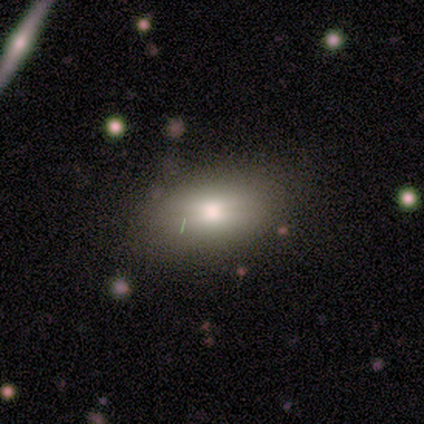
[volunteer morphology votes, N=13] smooth-or-featured: smooth: 69% | featured or disk: 23% | star or artifact: 8%
  how-rounded: in between: 100% | round: 0% | cigar-shaped: 0%
  merging: none: 75% | minor disturbance: 25% | major disturbance: 0% | merger: 0%